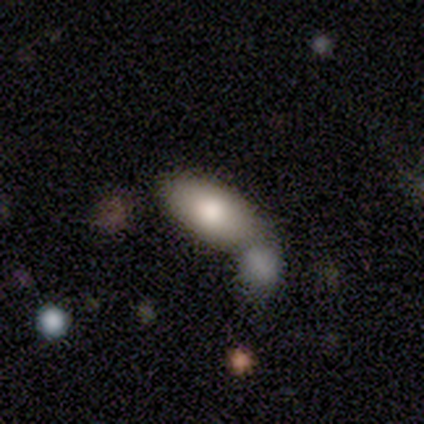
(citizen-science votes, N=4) Smooth or featured? smooth (100%)
How rounded? in between (100%)
Merging? merger (75%)